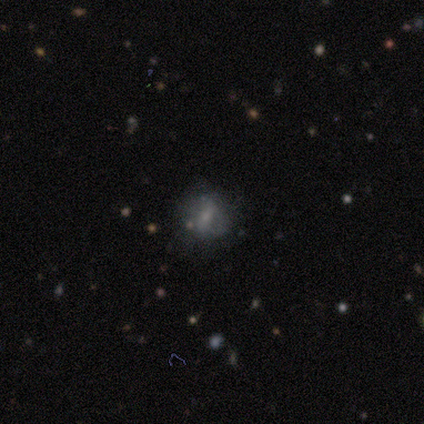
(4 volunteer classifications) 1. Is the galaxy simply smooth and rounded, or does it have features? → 75% smooth, 25% featured or disk, 0% star or artifact.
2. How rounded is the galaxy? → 67% round, 33% cigar-shaped, 0% in between.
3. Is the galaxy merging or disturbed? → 75% none, 25% minor disturbance, 0% major disturbance, 0% merger.